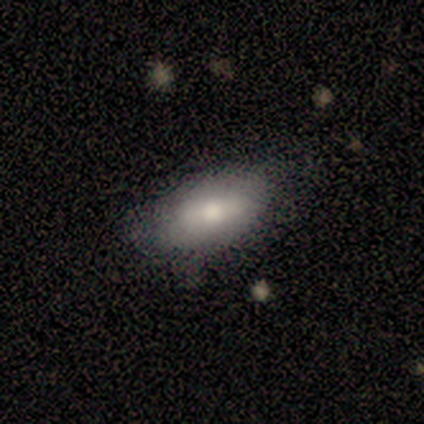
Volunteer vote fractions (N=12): This appears to be a smooth galaxy with no disk features (75%) that is in between round and cigar-shaped (100%). Merging: none (67%).